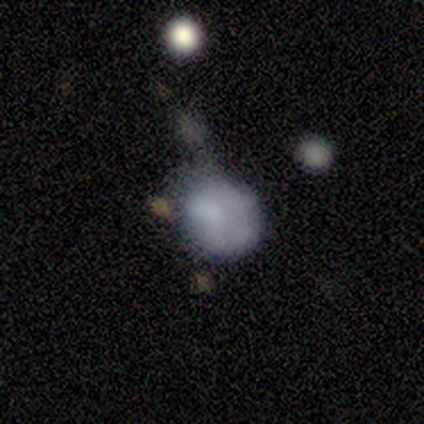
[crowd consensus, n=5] This is marginally a smooth galaxy (40%, tied with featured or disk). How rounded: clearly round (100%). Merging: possibly merger (50%).